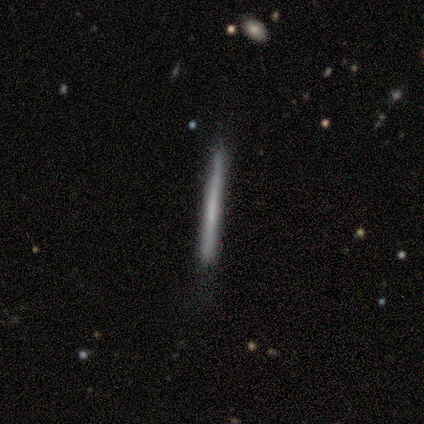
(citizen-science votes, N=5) A featured or disk galaxy (100%) viewed edge-on (100%) with no central bulge (80%). Merging: none (60%).